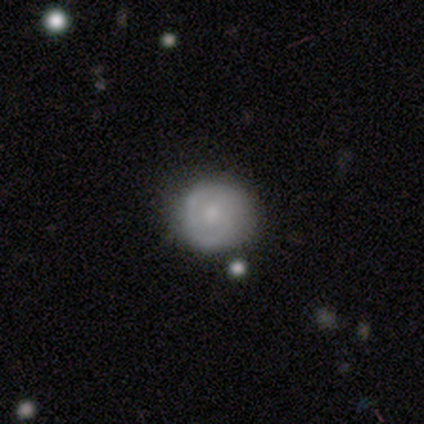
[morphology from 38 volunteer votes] This is possibly a smooth galaxy (58%). How rounded: clearly round (95%). Merging: likely none (67%).